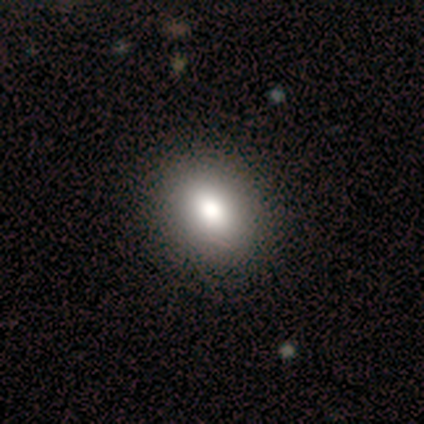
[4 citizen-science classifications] This is possibly a smooth galaxy (50%). How rounded: clearly in between (100%). Merging: clearly none (100%).